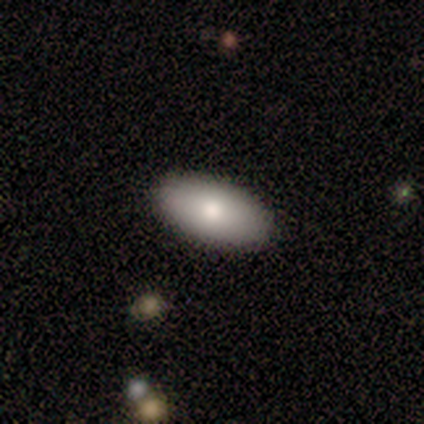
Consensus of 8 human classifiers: Morphology: type=smooth (100%); roundness=in between (100%); merging=none (88%).